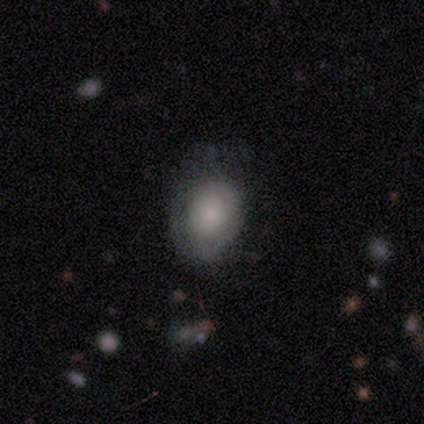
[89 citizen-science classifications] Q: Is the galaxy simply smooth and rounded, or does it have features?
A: smooth — 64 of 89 (72%).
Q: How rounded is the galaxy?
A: in between — 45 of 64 (70%).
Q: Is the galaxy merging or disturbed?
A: none — 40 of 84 (48%).